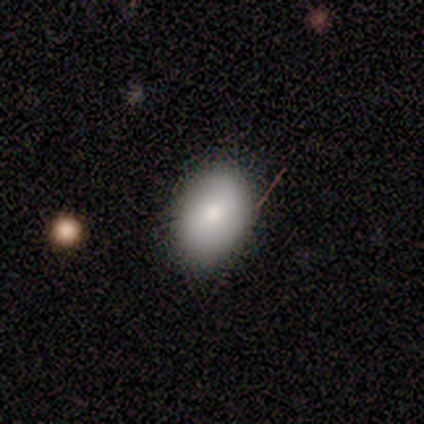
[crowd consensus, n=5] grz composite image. It shows a smooth galaxy with no disk features (100%) that is in between round and cigar-shaped (80%). Merging: none (80%).